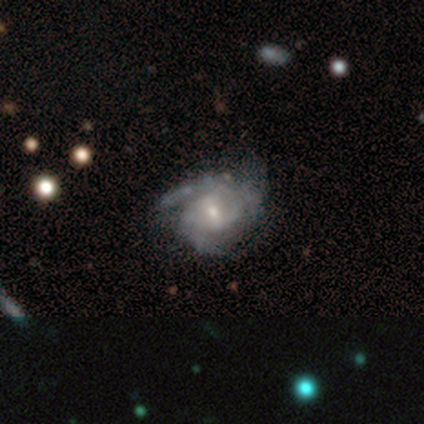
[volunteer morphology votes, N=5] This is clearly a featured or disk galaxy (80%). It is clearly not viewed edge-on (100%). Bar: likely weak (75%). Spiral arm pattern: clearly yes (100%). Spiral arm count: possibly 2 (50%, tied with 3). Spiral winding: likely tight (75%). Central bulge: likely small (75%). Merging: likely minor disturbance (60%).